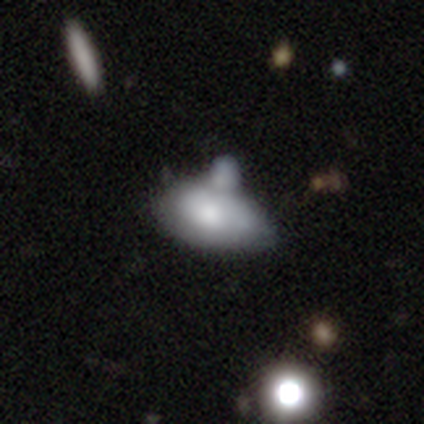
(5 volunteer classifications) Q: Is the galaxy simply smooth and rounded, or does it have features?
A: featured or disk — 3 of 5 (60%).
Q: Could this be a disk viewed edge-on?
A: no — 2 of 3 (67%).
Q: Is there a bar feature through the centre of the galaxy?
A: no — 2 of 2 (100%).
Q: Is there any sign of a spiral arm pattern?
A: no — 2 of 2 (100%).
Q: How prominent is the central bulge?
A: moderate — 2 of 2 (100%).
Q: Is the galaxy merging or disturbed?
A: none — 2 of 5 (40%, tied with major disturbance).